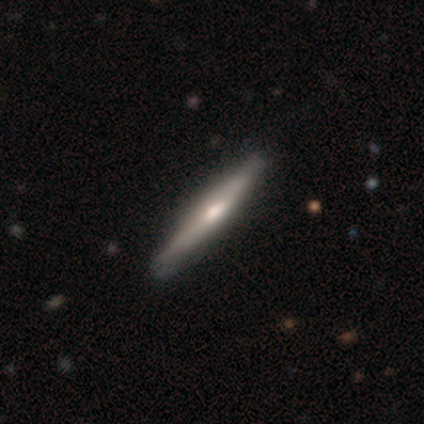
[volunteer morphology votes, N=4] Smooth or featured?
  - featured or disk: 50% *
  - smooth: 25%
  - star or artifact: 25%
Edge-on disk?
  - yes: 100% *
  - no: 0%
Edge-on bulge?
  - boxy: 50% * (tied)
  - rounded: 50% * (tied)
  - none: 0%
Merging?
  - none: 100% *
  - minor disturbance: 0%
  - major disturbance: 0%
  - merger: 0%